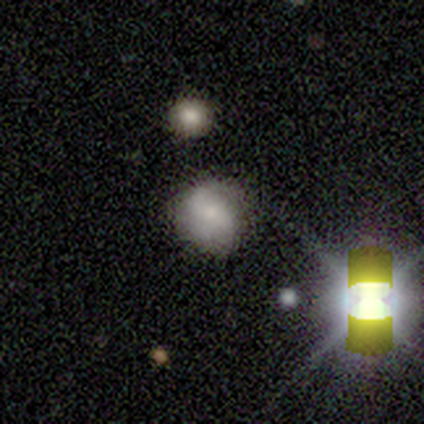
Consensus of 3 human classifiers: Volunteers were most divided on "smooth or featured": star or artifact: 67%, featured or disk: 33%, smooth: 0%.